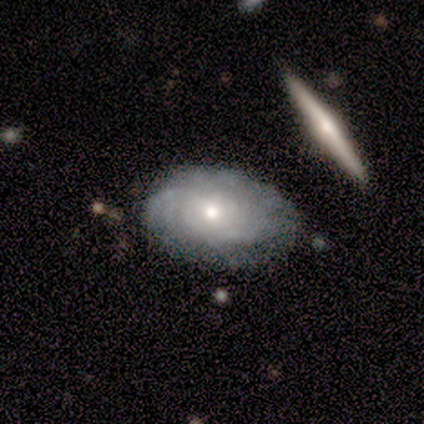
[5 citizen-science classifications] Overall: featured or disk (100%). Edge-on disk: no (100%). Bar: no (100%). Spiral arms: yes (80%). Spiral arm count: can't tell (75%). Spiral winding: tight (50%; medium 25%). Bulge size: small (80%). Merging: none (100%).